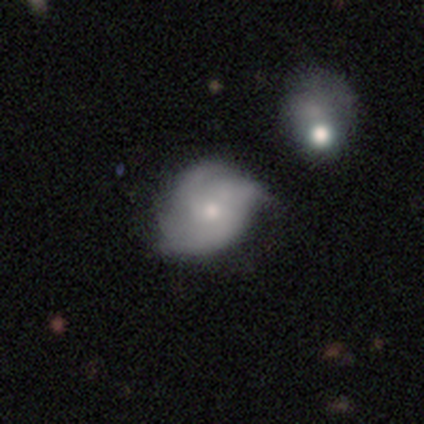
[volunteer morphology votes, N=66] A featured or disk galaxy (58%) with no bar (80%), 3 (47%) medium (57%) spiral arms (86%) and a moderate central bulge (54%). Merging: none (49%).